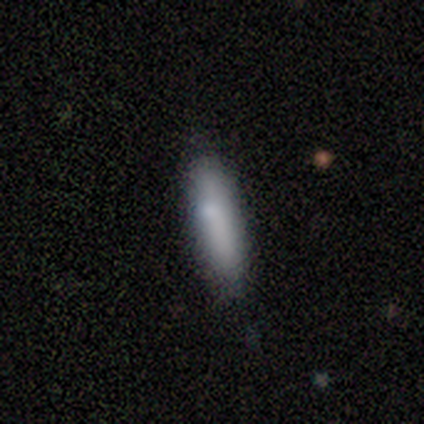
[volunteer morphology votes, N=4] Q: Smooth or featured?
A: smooth (100%)
Q: How rounded?
A: cigar-shaped (75%); runner-up: in between (25%)
Q: Merging?
A: none (100%)